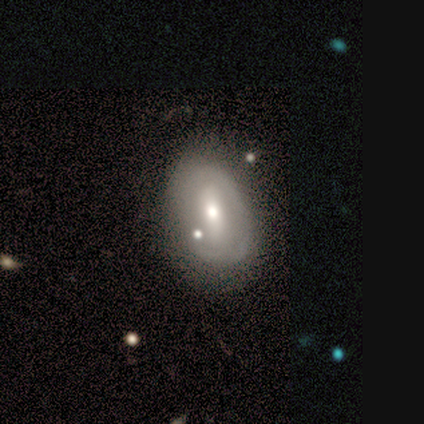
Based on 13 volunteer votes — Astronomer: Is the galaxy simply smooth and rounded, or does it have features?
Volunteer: featured or disk — 77%.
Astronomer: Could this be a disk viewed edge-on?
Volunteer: no — 100%.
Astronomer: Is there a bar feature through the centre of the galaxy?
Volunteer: weak — 40% (runner-up: strong, 30%).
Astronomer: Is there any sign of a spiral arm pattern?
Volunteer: no — 60% (runner-up: yes, 40%).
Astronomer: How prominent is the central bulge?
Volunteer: moderate — 90%.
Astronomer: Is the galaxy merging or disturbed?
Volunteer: none — 67%.